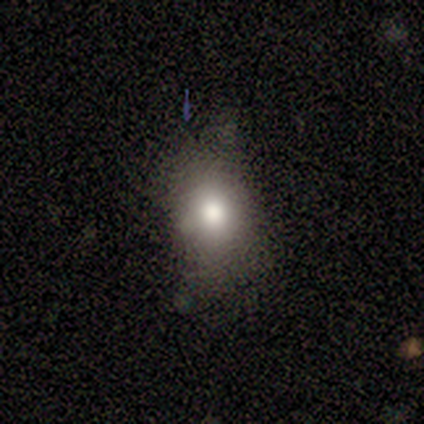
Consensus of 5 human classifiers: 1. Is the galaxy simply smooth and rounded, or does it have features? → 80% smooth, 20% star or artifact, 0% featured or disk.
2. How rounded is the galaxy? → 75% in between, 25% round, 0% cigar-shaped.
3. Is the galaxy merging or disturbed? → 100% none, 0% minor disturbance, 0% major disturbance, 0% merger.